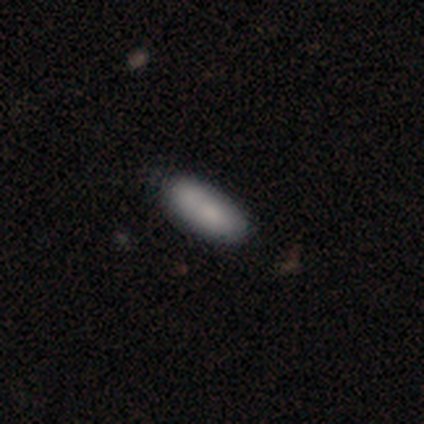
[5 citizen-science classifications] Smooth or featured? smooth (100%)
How rounded? in between (60%)
Merging? none (60%)